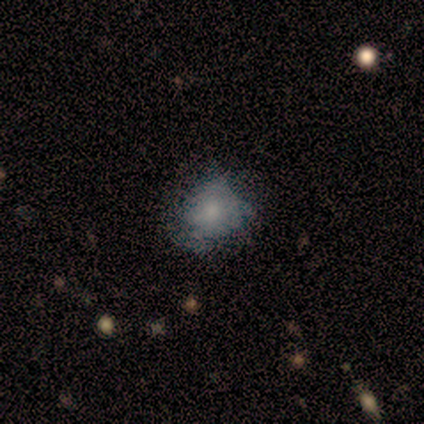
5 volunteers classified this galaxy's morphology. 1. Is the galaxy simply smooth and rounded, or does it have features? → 80% smooth, 20% featured or disk, 0% star or artifact.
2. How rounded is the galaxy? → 75% round, 25% in between, 0% cigar-shaped.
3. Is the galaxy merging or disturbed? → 60% none, 40% minor disturbance, 0% major disturbance, 0% merger.